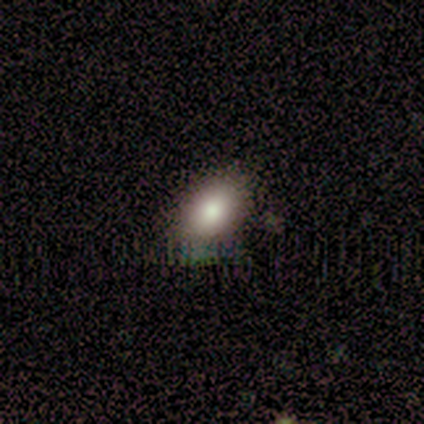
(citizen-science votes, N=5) Smooth or featured?
  - smooth: 100% *
  - featured or disk: 0%
  - star or artifact: 0%
How rounded?
  - in between: 60% *
  - round: 40%
  - cigar-shaped: 0%
Merging?
  - none: 60% *
  - major disturbance: 20%
  - merger: 20%
  - minor disturbance: 0%